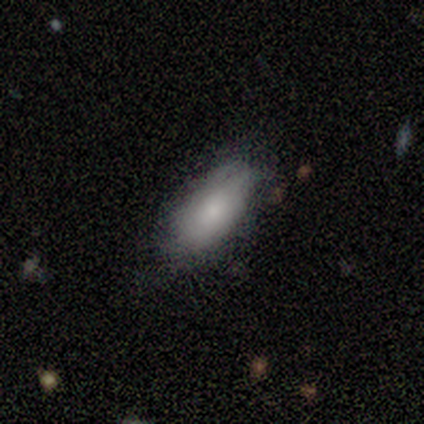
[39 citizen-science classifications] smooth_or_featured: smooth (p=0.72) [alt: featured or disk p=0.26]
how_rounded: in between (p=1.00)
merging: none (p=0.45) [alt: minor disturbance p=0.42]